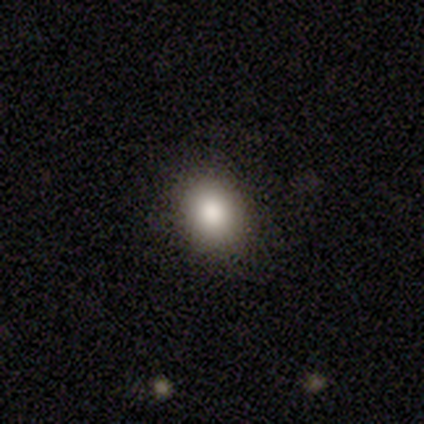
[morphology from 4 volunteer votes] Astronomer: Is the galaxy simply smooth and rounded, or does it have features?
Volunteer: smooth — 100%.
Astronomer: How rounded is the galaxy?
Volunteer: round — 75%.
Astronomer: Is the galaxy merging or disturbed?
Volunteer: none — 75%.